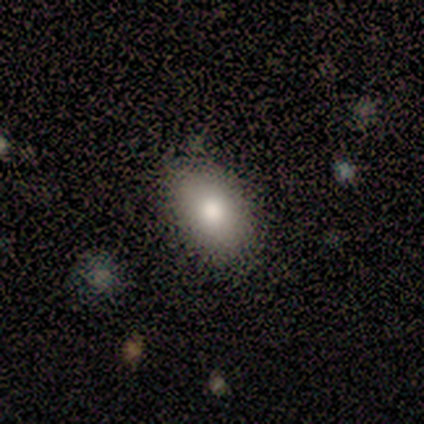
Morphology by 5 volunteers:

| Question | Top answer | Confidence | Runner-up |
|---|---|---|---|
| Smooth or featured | smooth | 80% | featured or disk (20%) |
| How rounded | in between | 75% | round (25%) |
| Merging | none | 100% | — |